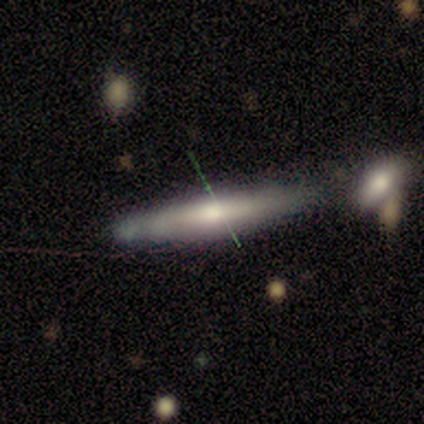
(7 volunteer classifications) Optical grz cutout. It shows a smooth galaxy with no disk features (57%) that is cigar-shaped (100%). Merging: none (43%, tied with minor disturbance).